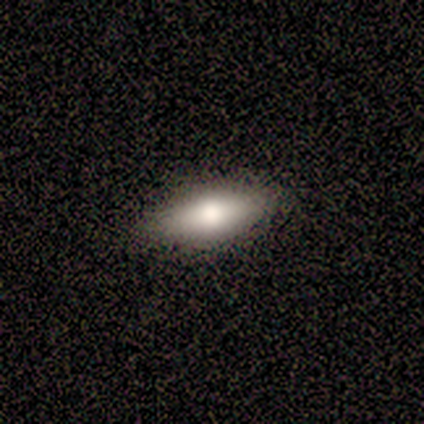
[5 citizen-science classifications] A smooth galaxy with no disk features (40%, tied with featured or disk) that is in between round and cigar-shaped (50%, tied with cigar-shaped). Merging: none (100%).